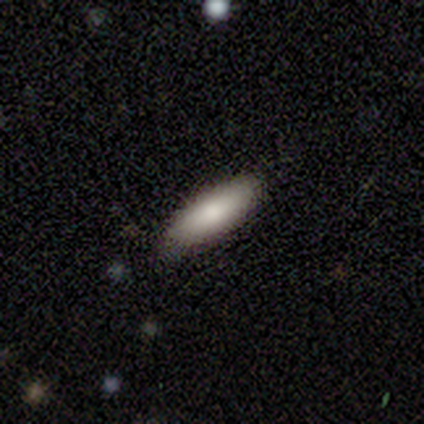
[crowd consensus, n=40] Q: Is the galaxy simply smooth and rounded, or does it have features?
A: smooth — 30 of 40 (75%).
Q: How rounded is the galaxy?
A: cigar-shaped — 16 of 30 (53%).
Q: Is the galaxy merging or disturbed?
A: none — 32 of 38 (84%).